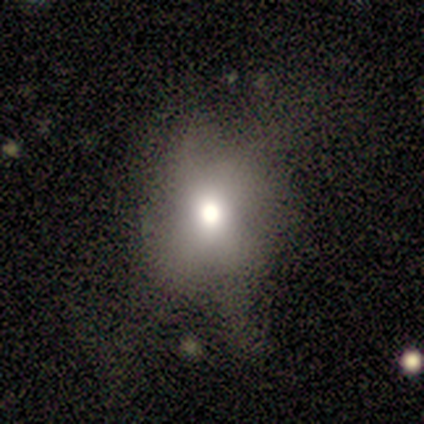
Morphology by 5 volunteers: Overall: featured or disk (60%; star or artifact 40%). Edge-on disk: no (100%). Bar: no (100%). Spiral arms: no (100%). Bulge size: moderate (100%). Merging: none (67%; major disturbance 33%).